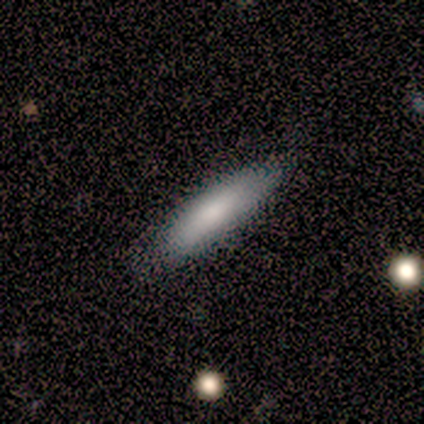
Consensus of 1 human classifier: Smooth or featured: featured or disk — 100%
Edge-on disk: yes — 100%
Edge-on bulge: none — 100%
Merging: none — 100%